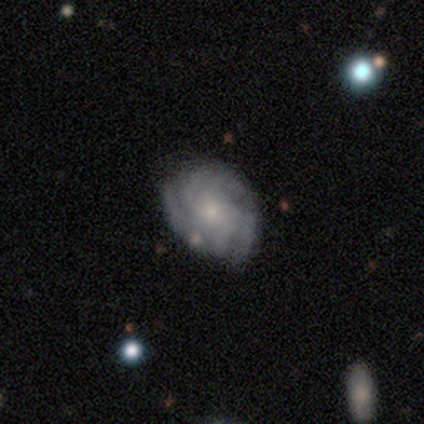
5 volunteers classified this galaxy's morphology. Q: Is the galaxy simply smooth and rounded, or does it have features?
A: featured or disk — 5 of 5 (100%).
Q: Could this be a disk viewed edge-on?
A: no — 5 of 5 (100%).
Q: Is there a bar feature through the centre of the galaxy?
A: no — 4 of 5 (80%).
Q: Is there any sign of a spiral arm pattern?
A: yes — 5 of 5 (100%).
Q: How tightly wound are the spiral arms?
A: tight — 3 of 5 (60%).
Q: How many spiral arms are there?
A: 2 — 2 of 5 (40%, tied with 3).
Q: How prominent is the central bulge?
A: small — 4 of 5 (80%).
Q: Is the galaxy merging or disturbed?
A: none — 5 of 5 (100%).